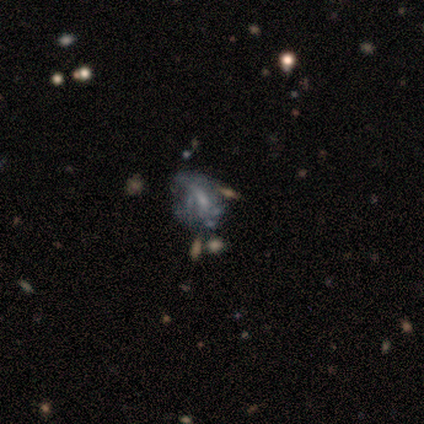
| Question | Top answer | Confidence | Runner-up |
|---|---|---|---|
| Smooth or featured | featured or disk | 75% | star or artifact (25%) |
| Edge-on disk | no | 100% | — |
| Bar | weak | 67% | no (33%) |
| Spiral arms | no | 67% | yes (33%) |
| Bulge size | small | 67% | moderate (33%) |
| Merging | none | 33% | tied: major disturbance (33%), merger (33%) |